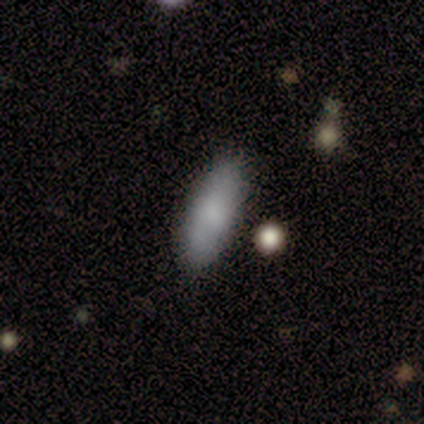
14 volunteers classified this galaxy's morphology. Volunteers were most divided on "how rounded": in between: 75%, cigar-shaped: 25%, round: 0%. More confident: smooth or featured — smooth (86%); merging — none (75%).